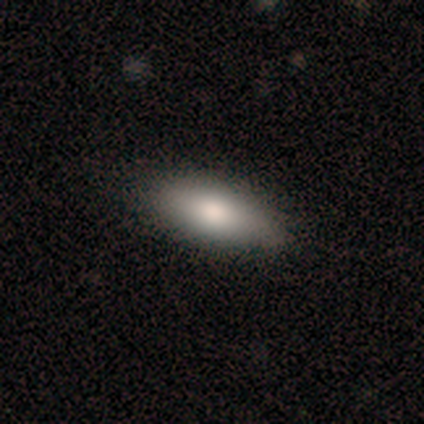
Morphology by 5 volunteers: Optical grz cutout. It shows a smooth galaxy with no disk features (60%) that is in between round and cigar-shaped (100%). Merging: none (100%).